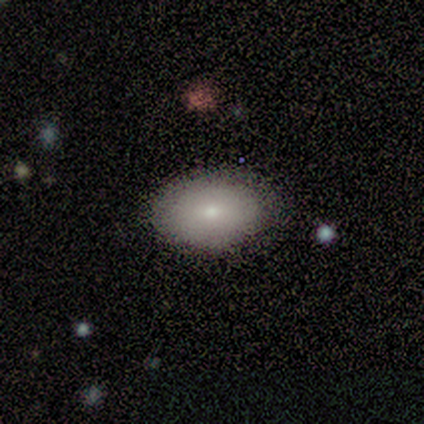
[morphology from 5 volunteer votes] Smooth or featured: smooth — 100%
How rounded: in between — 80% (round — 20%)
Merging: none — 80% (minor disturbance — 20%)